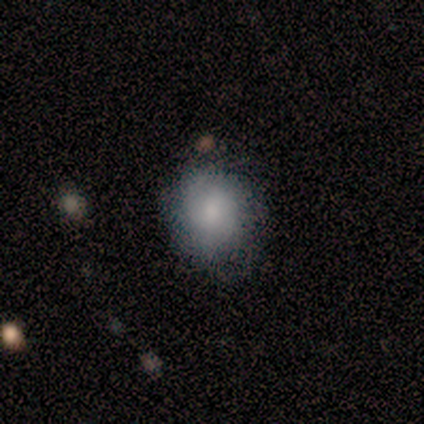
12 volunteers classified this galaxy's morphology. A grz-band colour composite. It shows a smooth galaxy with no disk features (67%) that is round (88%). Merging: none (55%).